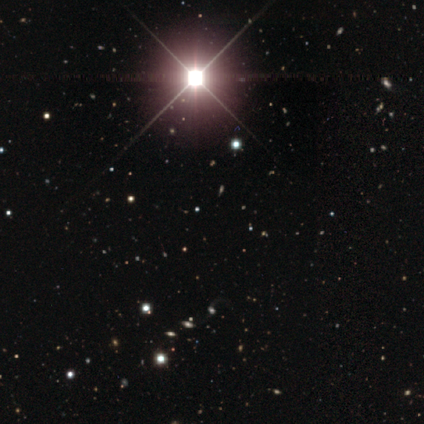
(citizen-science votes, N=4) A star or artifact, not a galaxy (100%).